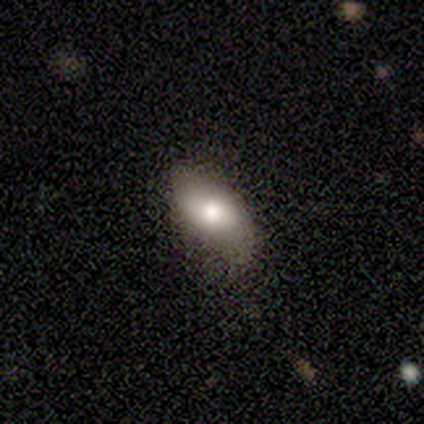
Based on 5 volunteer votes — This appears to be a smooth galaxy with no disk features (80%) that is in between round and cigar-shaped (100%). Merging: none (60%).